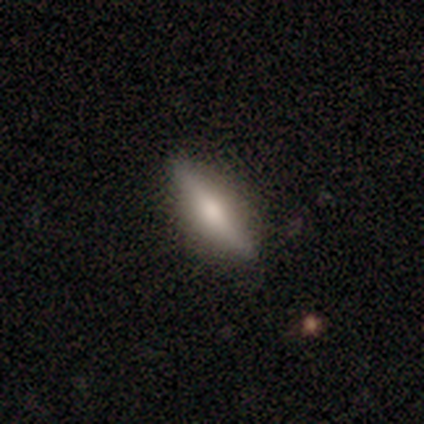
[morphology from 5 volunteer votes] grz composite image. It shows a smooth galaxy with no disk features (80%) that is in between round and cigar-shaped (75%). Merging: none (100%).